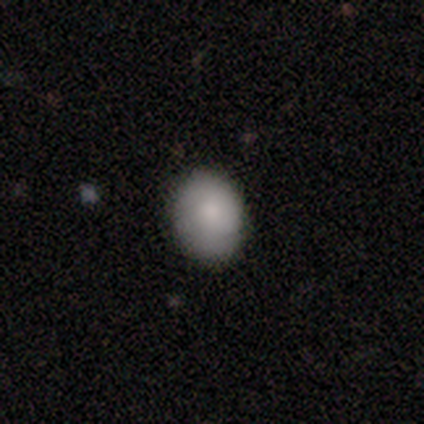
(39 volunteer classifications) Overall: smooth (90%). How rounded: in between (63%; round 37%). Merging: none (92%).